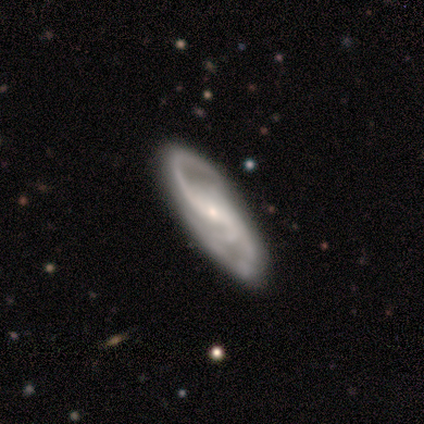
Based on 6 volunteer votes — Smooth or featured: featured or disk — 100%
Edge-on disk: no — 100%
Bar: no — 50% (weak — 33%)
Spiral arms: yes — 83% (no — 17%)
Spiral winding: medium — 60% (tight — 20%)
Spiral arm count: 3 — 80% (2 — 20%)
Bulge size: small — 67% (moderate — 33%)
Merging: none — 83% (minor disturbance — 17%)